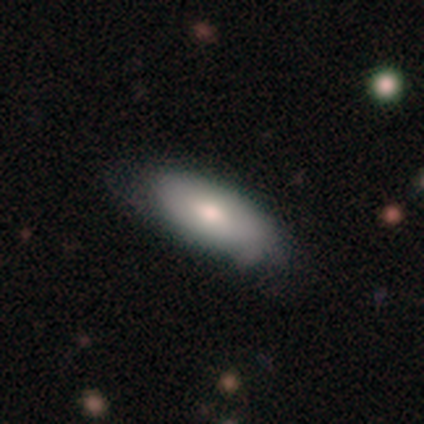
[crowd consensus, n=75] smooth 75%, featured or disk 21%, star or artifact 4%. Down the decision tree: how rounded — in between (86%); merging — none (35%).